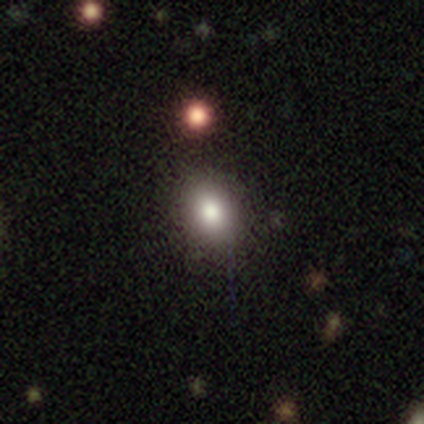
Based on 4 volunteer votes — This is clearly a smooth galaxy (100%). How rounded: possibly round (50%, tied with in between). Merging: clearly none (100%).